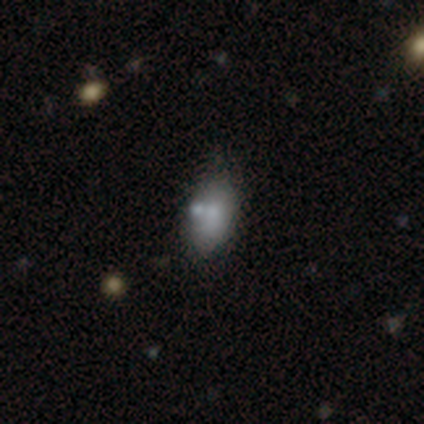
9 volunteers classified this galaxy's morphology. type=smooth (44%); roundness=in between (100%); merging=none (50%).